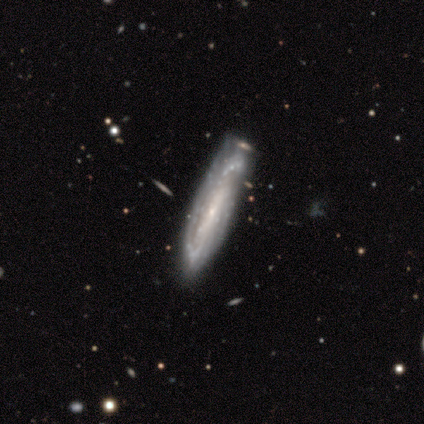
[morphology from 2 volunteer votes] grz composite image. It shows a featured or disk galaxy (100%) viewed edge-on (50%, tied with no) with no central bulge (100%). Merging: none (50%, tied with minor disturbance).